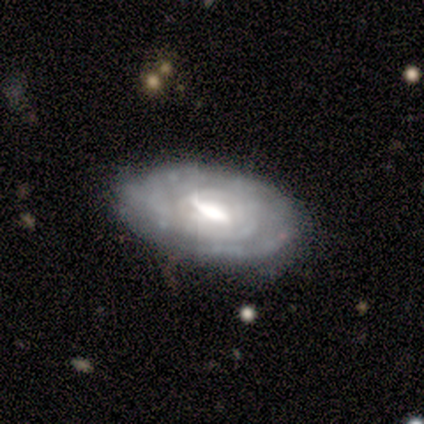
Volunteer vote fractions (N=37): Overall: featured or disk (73%). Edge-on disk: no (96%). Bar: weak (54%; strong 38%). Spiral arms: yes (85%). Spiral arm count: can't tell (95%). Spiral winding: tight (68%; medium 32%). Bulge size: moderate (65%; large 31%). Merging: none (72%).